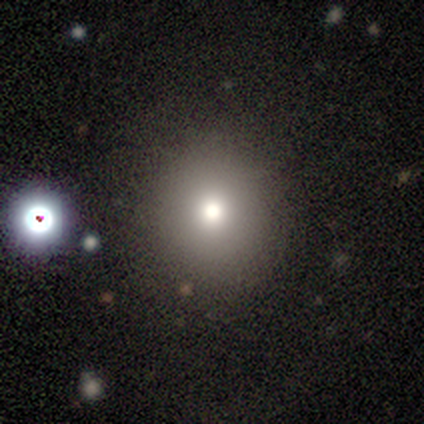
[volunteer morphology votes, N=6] Overall: smooth (50%; star or artifact 33%). How rounded: round (100%). Merging: none (100%).